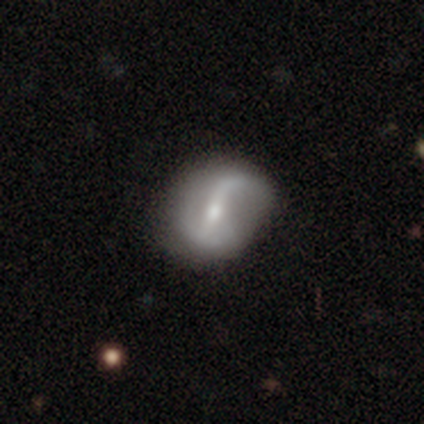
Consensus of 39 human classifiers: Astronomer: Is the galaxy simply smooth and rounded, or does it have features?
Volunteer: featured or disk — 74%.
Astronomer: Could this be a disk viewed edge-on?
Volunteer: no — 97%.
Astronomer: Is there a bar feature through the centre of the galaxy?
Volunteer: strong — 50% (runner-up: weak, 39%).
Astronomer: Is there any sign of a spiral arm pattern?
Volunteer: yes — 93%.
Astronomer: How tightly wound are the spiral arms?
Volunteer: loose — 69%.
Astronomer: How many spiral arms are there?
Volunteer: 2 — 88%.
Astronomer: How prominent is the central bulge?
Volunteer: moderate — 68%.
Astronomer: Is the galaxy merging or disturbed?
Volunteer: none — 57%.